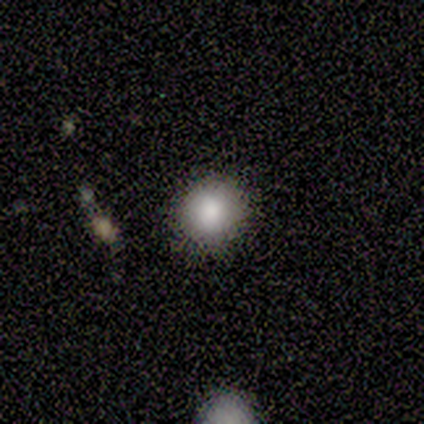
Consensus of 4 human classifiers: Morphology: type=smooth (75%); roundness=round (67%); merging=none (100%).